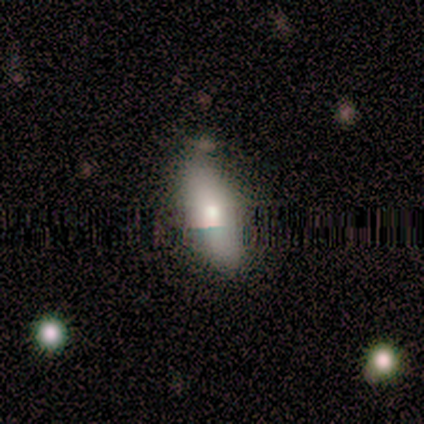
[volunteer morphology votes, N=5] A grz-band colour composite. It shows a featured or disk galaxy (60%) viewed edge-on (67%) with a rounded central bulge (100%). Merging: none (60%).